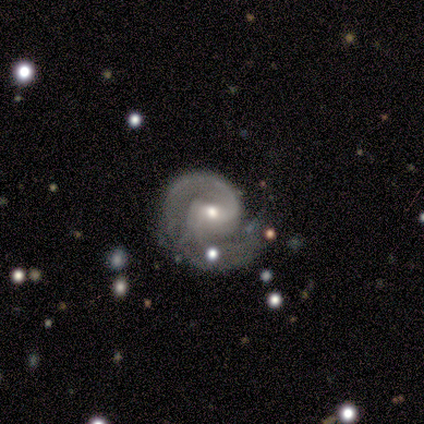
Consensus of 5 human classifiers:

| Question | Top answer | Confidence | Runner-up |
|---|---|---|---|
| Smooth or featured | featured or disk | 100% | — |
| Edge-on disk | no | 80% | yes (20%) |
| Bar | no | 75% | strong (25%) |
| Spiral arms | yes | 100% | — |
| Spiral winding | medium | 75% | tight (25%) |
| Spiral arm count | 1 | 50% | 2 (25%) |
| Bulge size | moderate | 50% | tied: small (50%) |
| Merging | none | 40% | minor disturbance (20%) |